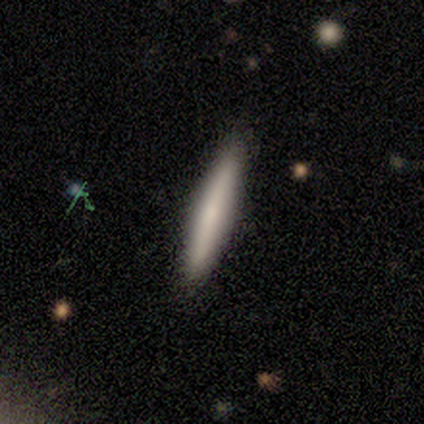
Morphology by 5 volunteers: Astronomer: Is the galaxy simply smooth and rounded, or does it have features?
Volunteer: smooth — 80%.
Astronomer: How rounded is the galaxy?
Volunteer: cigar-shaped — 100%.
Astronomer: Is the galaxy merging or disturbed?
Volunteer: none — 80%.